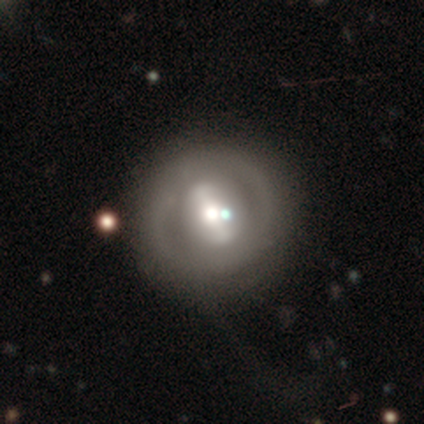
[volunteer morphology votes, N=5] type=featured or disk (60%); edge-on=no (100%); bar=strong (67%); spiral arms=no (67%); bulge=moderate (67%); merging=none (80%).